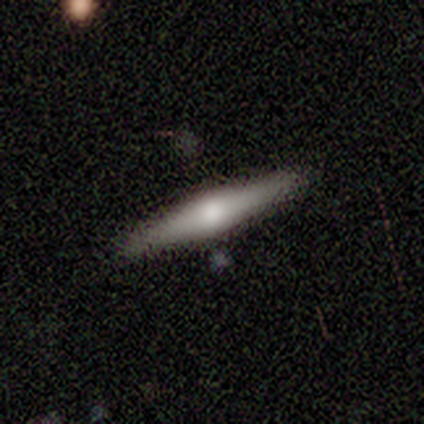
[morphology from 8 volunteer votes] A featured or disk galaxy (62%) viewed edge-on (100%) with a rounded central bulge (80%). Merging: none (50%).